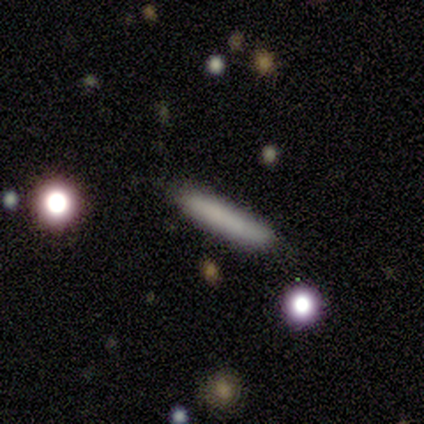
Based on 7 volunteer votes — Volunteers were most divided on "merging": none: 86%, major disturbance: 14%, minor disturbance: 0%, merger: 0%. More confident: smooth or featured — smooth (100%); how rounded — cigar-shaped (100%).